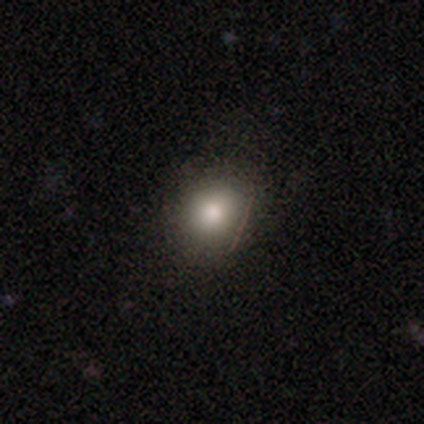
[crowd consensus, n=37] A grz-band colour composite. It shows a smooth galaxy with no disk features (89%) that is round (88%). Merging: none (80%).